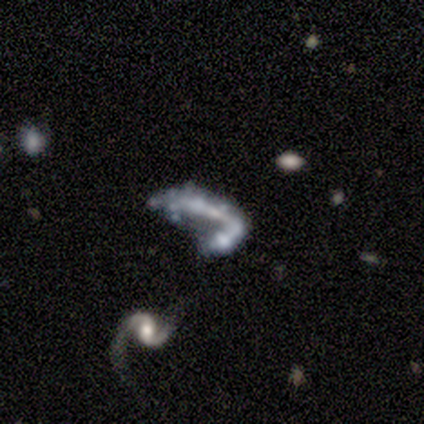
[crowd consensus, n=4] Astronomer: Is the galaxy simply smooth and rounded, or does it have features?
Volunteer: featured or disk — 75%.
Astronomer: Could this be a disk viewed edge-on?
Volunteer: no — 100%.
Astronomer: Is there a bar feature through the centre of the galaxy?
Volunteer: no — 67%.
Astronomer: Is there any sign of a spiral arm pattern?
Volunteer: no — 67%.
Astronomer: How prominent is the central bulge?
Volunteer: none — 100%.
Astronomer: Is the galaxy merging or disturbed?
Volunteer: merger — 67%.